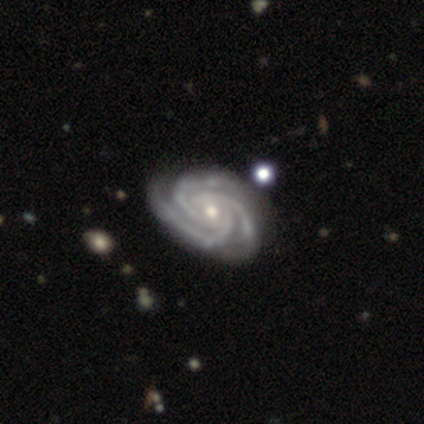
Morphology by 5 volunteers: smooth-or-featured: featured or disk: 100% | smooth: 0% | star or artifact: 0%
  disk-edge-on: no: 100% | yes: 0%
    bar: no: 80% | strong: 20% | weak: 0%
    has-spiral-arms: yes: 100% | no: 0%
      spiral-winding: tight: 100% | medium: 0% | loose: 0%
      spiral-arm-count: 3: 100% | 1: 0% | 2: 0% | 4: 0% | more than 4: 0% | can't tell: 0%
    bulge-size: small: 80% | none: 20% | dominant: 0% | large: 0% | moderate: 0%
  merging: none: 60% | minor disturbance: 40% | major disturbance: 0% | merger: 0%